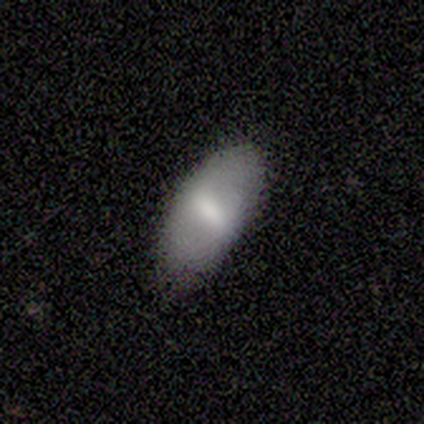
A smooth galaxy with no disk features (60%) that is in between round and cigar-shaped (100%).

Vote fractions:
- Smooth or featured? smooth: 60% / featured or disk: 40% / star or artifact: 0%
- How rounded? in between: 100% / round: 0% / cigar-shaped: 0%
- Merging? none: 100% / minor disturbance: 0% / major disturbance: 0% / merger: 0%